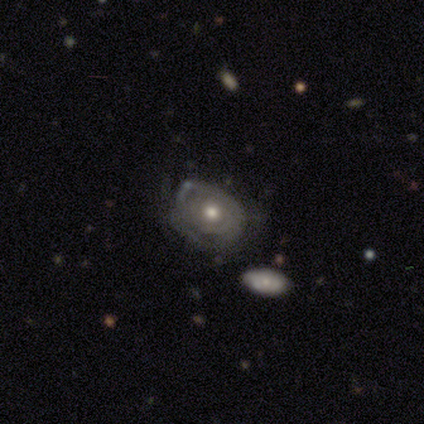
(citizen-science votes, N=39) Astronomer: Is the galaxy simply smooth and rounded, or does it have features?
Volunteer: featured or disk — 74%.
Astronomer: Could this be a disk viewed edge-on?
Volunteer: no — 97%.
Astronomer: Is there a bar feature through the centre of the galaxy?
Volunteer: no — 86%.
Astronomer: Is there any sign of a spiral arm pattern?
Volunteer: yes — 57% (runner-up: no, 43%).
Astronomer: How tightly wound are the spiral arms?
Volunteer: tight — 88%.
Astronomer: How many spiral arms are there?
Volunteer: can't tell — 75%.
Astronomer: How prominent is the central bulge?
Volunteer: moderate — 50% (runner-up: small, 39%).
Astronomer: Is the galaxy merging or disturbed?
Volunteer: none — 62%.